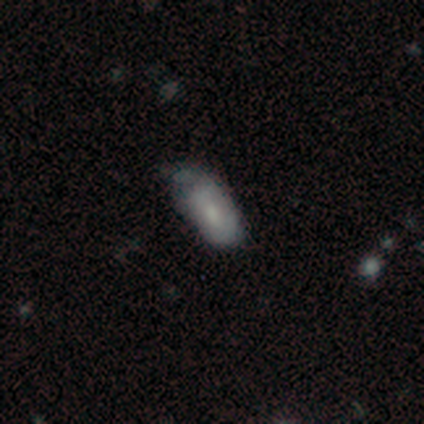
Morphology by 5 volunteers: This is clearly a smooth galaxy (80%). How rounded: clearly in between (100%). Merging: clearly none (80%).